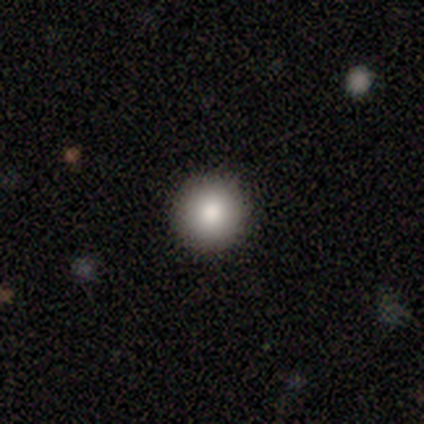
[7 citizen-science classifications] Smooth or featured?
  - smooth: 57% *
  - star or artifact: 29%
  - featured or disk: 14%
How rounded?
  - round: 100% *
  - in between: 0%
  - cigar-shaped: 0%
Merging?
  - none: 100% *
  - minor disturbance: 0%
  - major disturbance: 0%
  - merger: 0%